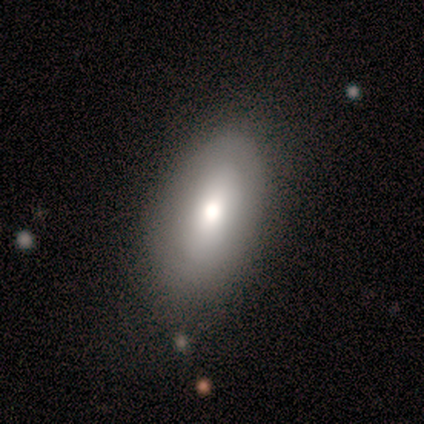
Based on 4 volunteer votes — Volunteers were most divided on "merging": none: 50%, minor disturbance: 25%, major disturbance: 25%, merger: 0%. More confident: smooth or featured — smooth (100%); how rounded — in between (100%).